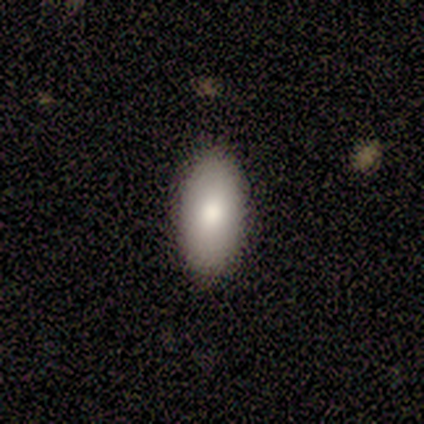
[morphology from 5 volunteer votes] A smooth galaxy with no disk features (100%) that is in between round and cigar-shaped (100%). Merging: none (100%).